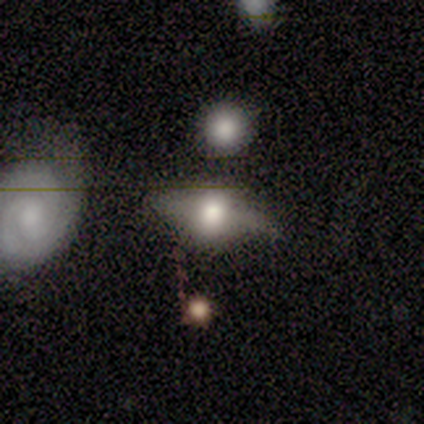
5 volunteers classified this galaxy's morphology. Overall: smooth (60%; featured or disk 20%). How rounded: in between (67%; cigar-shaped 33%). Merging: none (75%).